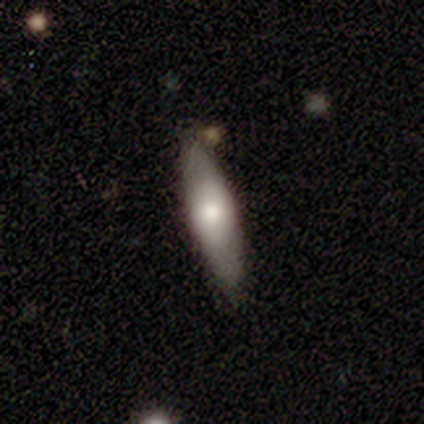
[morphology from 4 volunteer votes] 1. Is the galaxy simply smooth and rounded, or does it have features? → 50% smooth (tied), 50% star or artifact (tied), 0% featured or disk.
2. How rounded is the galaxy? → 100% cigar-shaped, 0% round, 0% in between.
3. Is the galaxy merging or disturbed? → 50% none (tied), 50% major disturbance (tied), 0% minor disturbance, 0% merger.